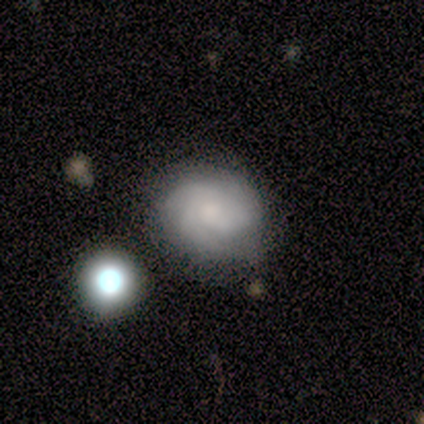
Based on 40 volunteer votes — A featured or disk galaxy (72%) with no bar (83%), 3 (52%) tight (64%) spiral arms (86%) and a small central bulge (34%). Merging: none (57%).